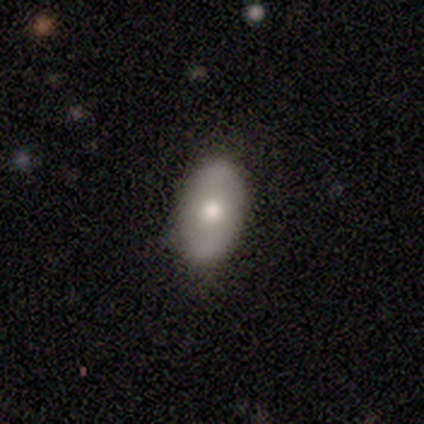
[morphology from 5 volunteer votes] Volunteers were most divided on "smooth or featured": smooth: 60%, featured or disk: 40%, star or artifact: 0%. More confident: how rounded — in between (100%); merging — none (60%).